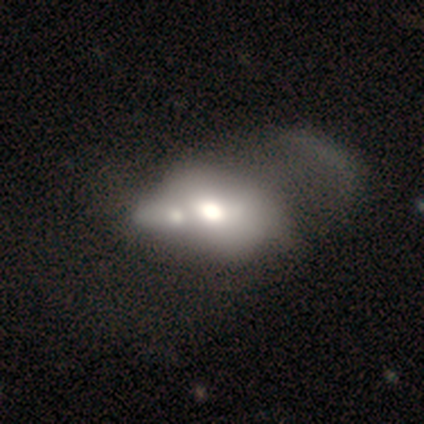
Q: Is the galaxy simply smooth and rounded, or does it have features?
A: featured or disk — 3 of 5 (60%).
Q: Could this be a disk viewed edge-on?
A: no — 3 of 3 (100%).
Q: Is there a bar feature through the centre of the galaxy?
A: no — 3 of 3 (100%).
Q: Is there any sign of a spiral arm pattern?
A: no — 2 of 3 (67%).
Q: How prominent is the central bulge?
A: large — 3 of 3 (100%).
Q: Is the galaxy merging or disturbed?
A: merger — 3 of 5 (60%).